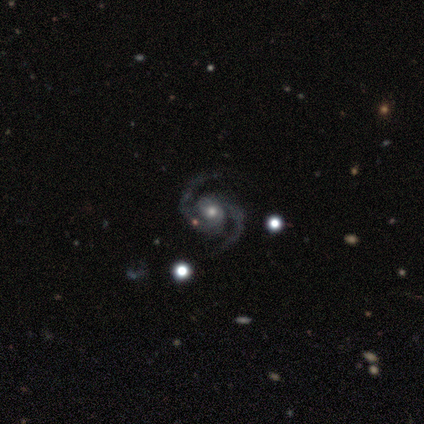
featured or disk 98%, smooth 2%, star or artifact 0%. Down the decision tree: edge-on disk — no (100%); bar — no (67%); spiral arms — yes (100%); spiral arm count — 2 (99%); spiral winding — medium (67%); bulge size — moderate (56%); merging — none (54%).